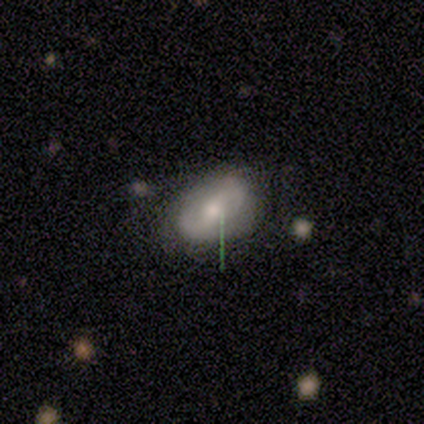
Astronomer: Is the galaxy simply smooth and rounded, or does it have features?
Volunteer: featured or disk — 67%.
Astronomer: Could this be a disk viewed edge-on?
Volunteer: no — 100%.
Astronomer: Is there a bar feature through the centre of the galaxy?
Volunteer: strong — 50%, tied with weak at 50%.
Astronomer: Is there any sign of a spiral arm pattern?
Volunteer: no — 100%.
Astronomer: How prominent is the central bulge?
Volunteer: small — 100%.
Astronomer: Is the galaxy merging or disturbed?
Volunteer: none — 67%.